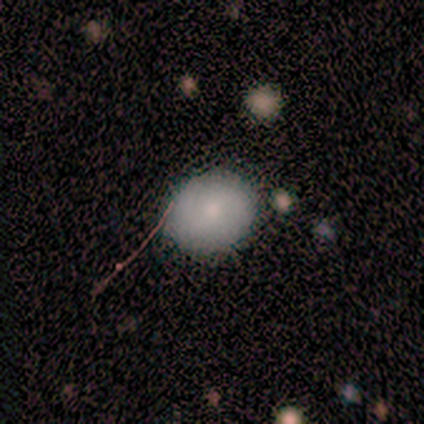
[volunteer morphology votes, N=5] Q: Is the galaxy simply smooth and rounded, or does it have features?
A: smooth — 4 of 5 (80%).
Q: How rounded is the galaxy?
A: round — 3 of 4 (75%).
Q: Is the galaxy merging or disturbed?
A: none — 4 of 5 (80%).